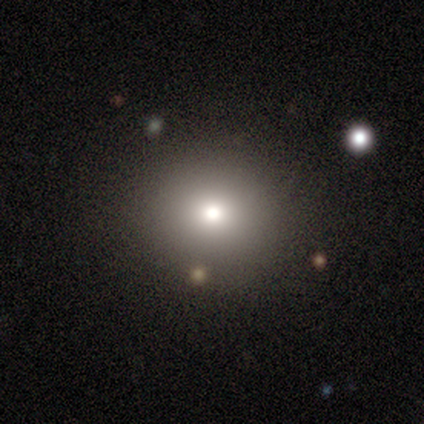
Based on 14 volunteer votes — smooth_or_featured: smooth (p=0.64) [alt: star or artifact p=0.21]
how_rounded: round (p=1.00)
merging: none (p=0.91) [alt: merger p=0.09]